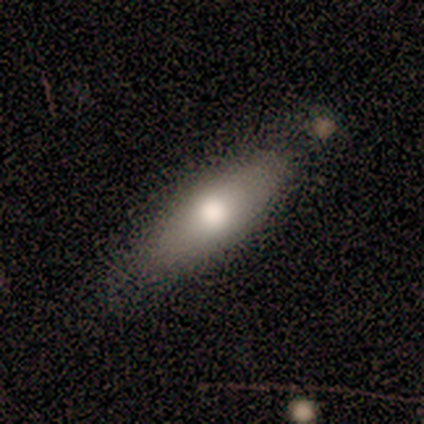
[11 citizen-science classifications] This appears to be a smooth galaxy with no disk features (73%) that is in between round and cigar-shaped (75%). Merging: none (78%).